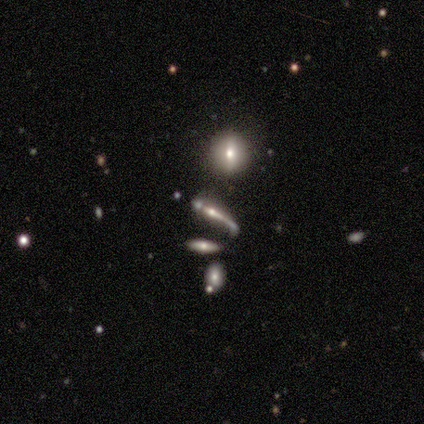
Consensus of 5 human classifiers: A featured or disk galaxy (80%) viewed edge-on (75%) with a rounded central bulge (67%). Merging: minor disturbance (60%).